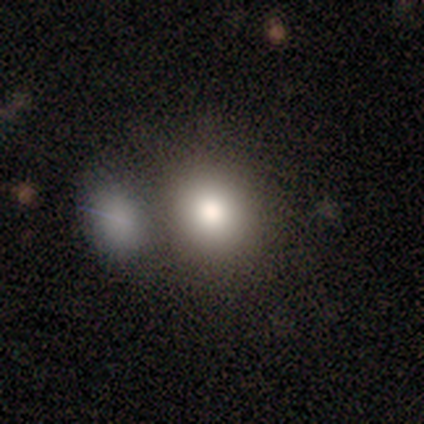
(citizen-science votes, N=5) This is clearly a smooth galaxy (80%). How rounded: likely round (75%). Merging: possibly none (50%, tied with merger).